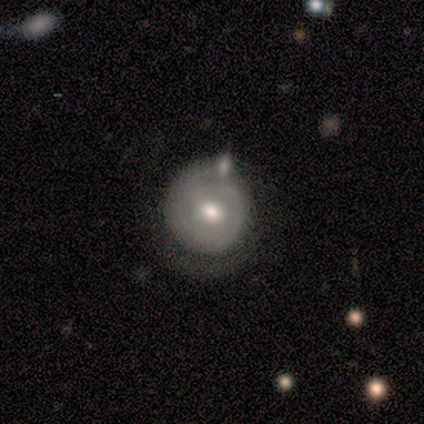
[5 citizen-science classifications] Smooth or featured? featured or disk (60%)
Edge-on disk? no (100%)
Bar? no (67%)
Spiral arms? no (67%)
Bulge size? moderate (100%)
Merging? none (60%)